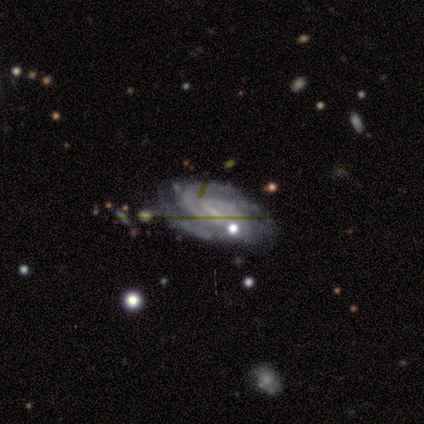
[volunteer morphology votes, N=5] A featured or disk galaxy (100%) with a weak bar (80%), 2 (40%, tied with 3) tight (60%) spiral arms (100%) and no central bulge (60%).

Vote fractions:
- Smooth or featured? featured or disk: 100% / smooth: 0% / star or artifact: 0%
- Edge-on disk? no: 100% / yes: 0%
- Bar? weak: 80% / no: 20% / strong: 0%
- Spiral arms? yes: 100% / no: 0%
- Spiral winding? tight: 60% / medium: 40% / loose: 0%
- Spiral arm count? 2: 40% (tied) / 3: 40% (tied) / can't tell: 20% / 1: 0% / 4: 0% / more than 4: 0%
- Bulge size? none: 60% / small: 40% / dominant: 0% / large: 0% / moderate: 0%
- Merging? none: 80% / minor disturbance: 20% / major disturbance: 0% / merger: 0%